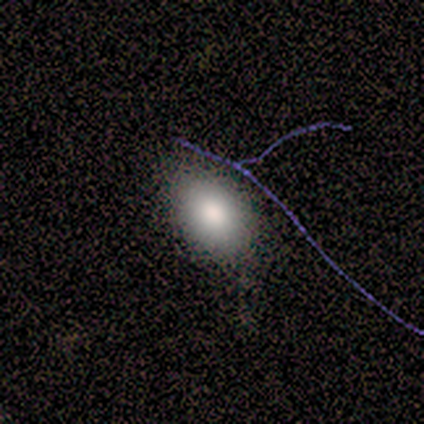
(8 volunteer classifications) Overall: smooth (75%). How rounded: in between (83%). Merging: none (88%).